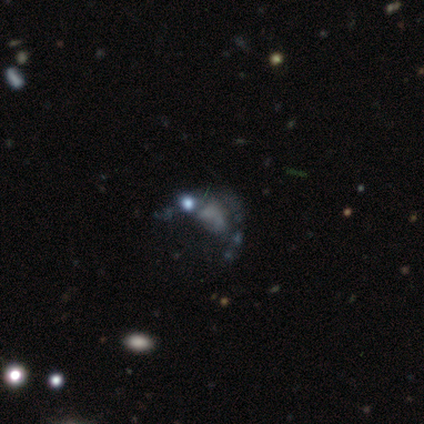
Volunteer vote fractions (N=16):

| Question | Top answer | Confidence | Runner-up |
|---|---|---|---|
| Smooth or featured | featured or disk | 62% | star or artifact (25%) |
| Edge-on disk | no | 100% | — |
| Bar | no | 100% | — |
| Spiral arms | no | 90% | yes (10%) |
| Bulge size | none | 80% | moderate (10%) |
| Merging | major disturbance | 50% | none (42%) |